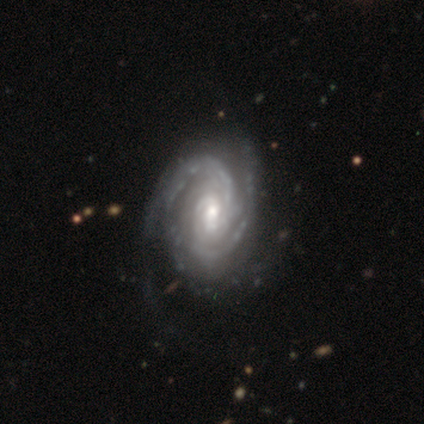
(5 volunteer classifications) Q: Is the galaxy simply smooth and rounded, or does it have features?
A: featured or disk — 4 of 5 (80%).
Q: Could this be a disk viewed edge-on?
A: no — 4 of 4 (100%).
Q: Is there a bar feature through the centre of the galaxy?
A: weak — 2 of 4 (50%, tied with no).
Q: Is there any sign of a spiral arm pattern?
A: yes — 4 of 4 (100%).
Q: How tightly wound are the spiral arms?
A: tight — 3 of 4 (75%).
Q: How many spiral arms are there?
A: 2 — 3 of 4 (75%).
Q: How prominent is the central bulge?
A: moderate — 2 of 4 (50%, tied with small).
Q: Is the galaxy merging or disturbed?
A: minor disturbance — 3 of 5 (60%).